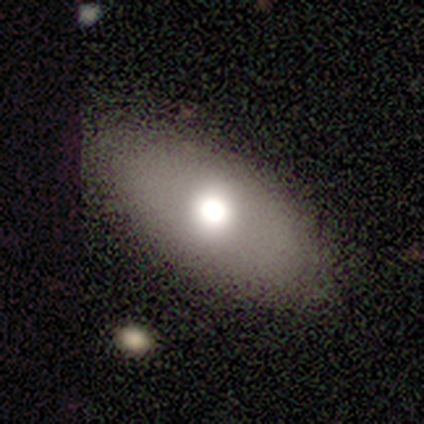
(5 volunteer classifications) This appears to be a smooth galaxy with no disk features (60%) that is in between round and cigar-shaped (67%). Merging: none (100%).